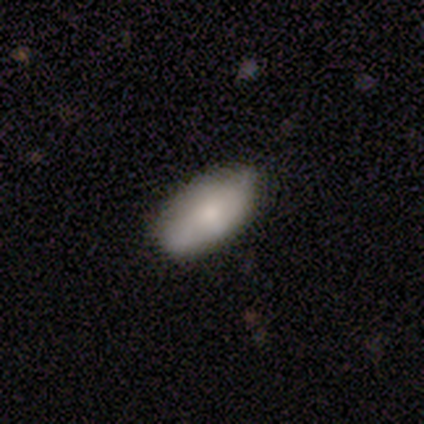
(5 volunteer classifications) Smooth or featured? 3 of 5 (60%) said smooth. How rounded? 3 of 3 (100%) said in between. Merging? 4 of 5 (80%) said none.